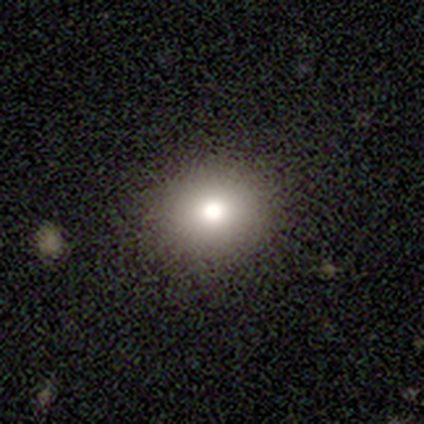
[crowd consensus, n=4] This appears to be a smooth galaxy with no disk features (100%) that is round (100%). Merging: none (100%).